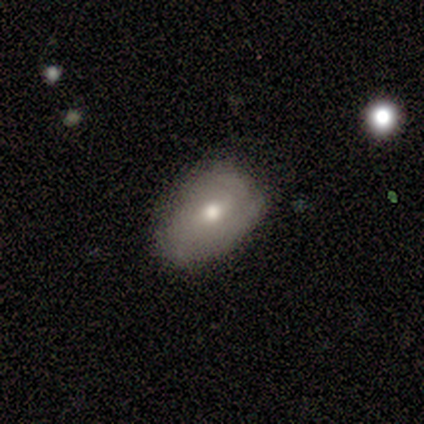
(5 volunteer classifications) A smooth galaxy with no disk features (60%) that is round (33%, tied with in between and cigar-shaped).

Vote fractions:
- Smooth or featured? smooth: 60% / featured or disk: 40% / star or artifact: 0%
- How rounded? round: 33% (tied) / in between: 33% (tied) / cigar-shaped: 33% (tied)
- Merging? minor disturbance: 60% / none: 40% / major disturbance: 0% / merger: 0%